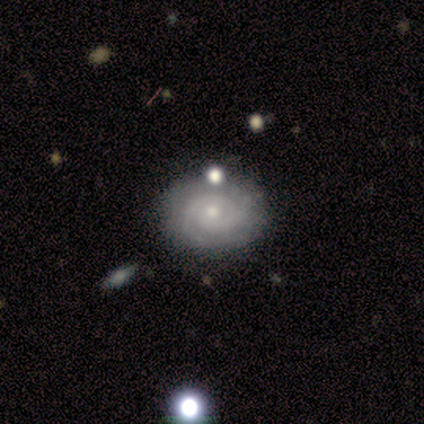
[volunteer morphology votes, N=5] A featured or disk galaxy (80%) with no bar (100%), 2 (100%) tight (100%) spiral arms (75%) and a moderate central bulge (50%, tied with small).

Vote fractions:
- Smooth or featured? featured or disk: 80% / smooth: 20% / star or artifact: 0%
- Edge-on disk? no: 100% / yes: 0%
- Bar? no: 100% / strong: 0% / weak: 0%
- Spiral arms? yes: 75% / no: 25%
- Spiral winding? tight: 100% / medium: 0% / loose: 0%
- Spiral arm count? 2: 100% / 1: 0% / 3: 0% / 4: 0% / more than 4: 0% / can't tell: 0%
- Bulge size? moderate: 50% (tied) / small: 50% (tied) / dominant: 0% / large: 0% / none: 0%
- Merging? none: 80% / minor disturbance: 20% / major disturbance: 0% / merger: 0%